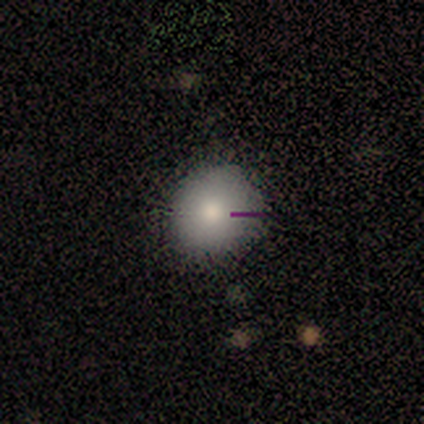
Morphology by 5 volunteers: Q: Smooth or featured?
A: smooth (80%); runner-up: star or artifact (20%)
Q: How rounded?
A: round (100%)
Q: Merging?
A: none (100%)